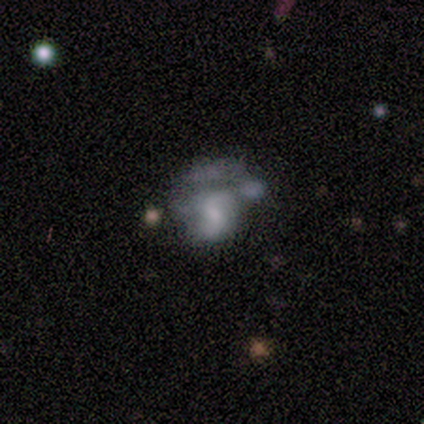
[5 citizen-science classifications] Smooth or featured?
  - featured or disk: 60% *
  - smooth: 40%
  - star or artifact: 0%
Edge-on disk?
  - no: 100% *
  - yes: 0%
Bar?
  - no: 100% *
  - strong: 0%
  - weak: 0%
Spiral arms?
  - no: 100% *
  - yes: 0%
Bulge size?
  - none: 67% *
  - moderate: 33%
  - dominant: 0%
  - large: 0%
  - small: 0%
Merging?
  - none: 40% * (tied)
  - major disturbance: 40% * (tied)
  - merger: 20%
  - minor disturbance: 0%